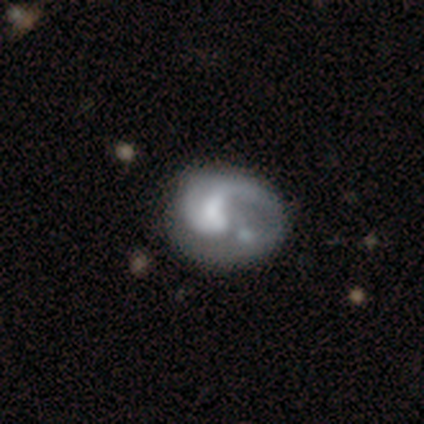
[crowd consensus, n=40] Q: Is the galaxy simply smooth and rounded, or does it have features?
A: featured or disk — 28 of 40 (70%).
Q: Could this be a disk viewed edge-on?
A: no — 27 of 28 (96%).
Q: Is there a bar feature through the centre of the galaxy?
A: no — 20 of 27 (74%).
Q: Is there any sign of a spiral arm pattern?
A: yes — 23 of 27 (85%).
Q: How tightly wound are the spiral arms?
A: loose — 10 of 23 (43%).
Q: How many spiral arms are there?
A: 1 — 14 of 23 (61%).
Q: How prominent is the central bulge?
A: moderate — 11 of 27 (41%).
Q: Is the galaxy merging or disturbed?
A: major disturbance — 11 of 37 (30%).